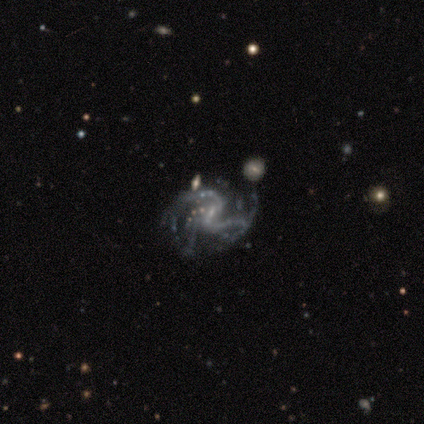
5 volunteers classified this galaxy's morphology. Overall: featured or disk (80%). Edge-on disk: no (100%). Bar: strong (50%, tied with weak). Spiral arms: yes (100%). Spiral arm count: 2 (50%, tied with 3). Spiral winding: loose (50%; tight 25%). Bulge size: small (75%). Merging: none (50%; minor disturbance 25%).